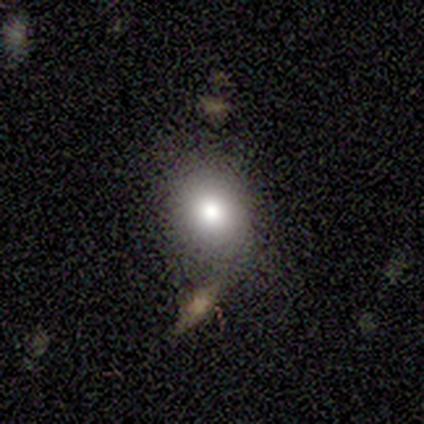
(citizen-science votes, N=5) Q: Smooth or featured?
A: smooth (100%)
Q: How rounded?
A: round (80%); runner-up: in between (20%)
Q: Merging?
A: none (80%); runner-up: minor disturbance (20%)